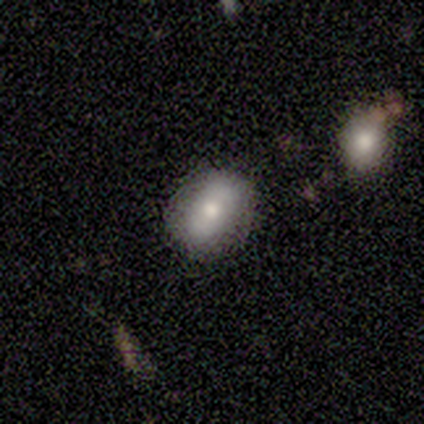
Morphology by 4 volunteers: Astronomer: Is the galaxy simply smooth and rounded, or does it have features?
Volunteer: smooth — 75%.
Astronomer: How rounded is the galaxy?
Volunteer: in between — 67%.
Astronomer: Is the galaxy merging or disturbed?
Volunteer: none — 100%.